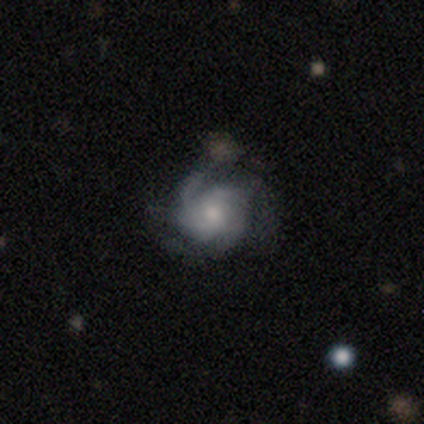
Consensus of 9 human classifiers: Smooth or featured?
  - featured or disk: 89% *
  - smooth: 11%
  - star or artifact: 0%
Edge-on disk?
  - no: 100% *
  - yes: 0%
Bar?
  - no: 62% *
  - weak: 38%
  - strong: 0%
Spiral arms?
  - yes: 100% *
  - no: 0%
Spiral winding?
  - medium: 75% *
  - tight: 25%
  - loose: 0%
Spiral arm count?
  - 3: 50% *
  - 2: 25%
  - 4: 12%
  - can't tell: 12%
  - 1: 0%
  - more than 4: 0%
Bulge size?
  - moderate: 50% * (tied)
  - small: 50% * (tied)
  - dominant: 0%
  - large: 0%
  - none: 0%
Merging?
  - none: 56% *
  - minor disturbance: 22%
  - major disturbance: 11%
  - merger: 11%